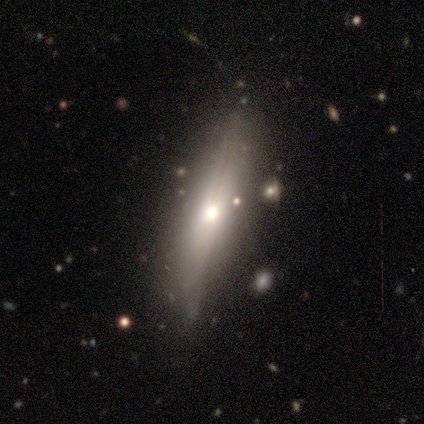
This appears to be a featured or disk galaxy (76%) viewed edge-on (100%) with a rounded central bulge (69%). Merging: none (74%).